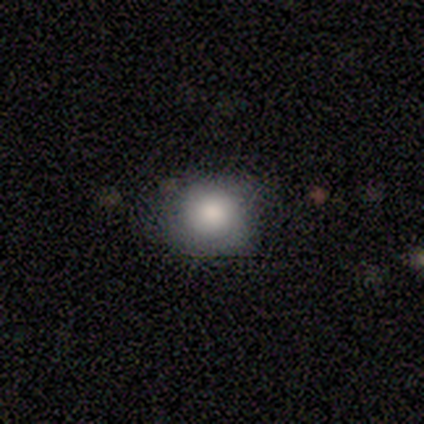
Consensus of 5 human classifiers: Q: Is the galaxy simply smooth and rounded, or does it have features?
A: smooth — 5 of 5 (100%).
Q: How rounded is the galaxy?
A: round — 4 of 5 (80%).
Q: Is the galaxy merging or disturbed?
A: none — 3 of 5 (60%).